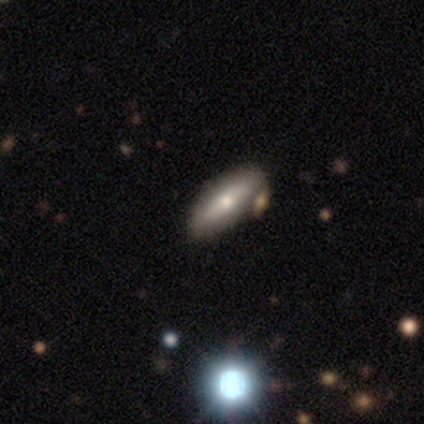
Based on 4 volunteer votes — This appears to be a smooth galaxy with no disk features (75%) that is in between round and cigar-shaped (67%). Merging: none (100%).